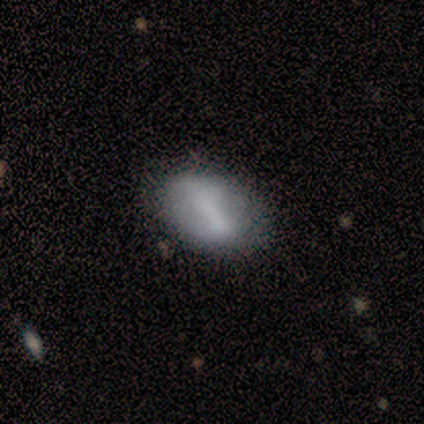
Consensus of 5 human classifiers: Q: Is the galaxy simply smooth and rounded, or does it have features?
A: smooth — 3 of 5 (60%).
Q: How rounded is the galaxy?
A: in between — 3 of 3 (100%).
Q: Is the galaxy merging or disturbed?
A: none — 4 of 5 (80%).